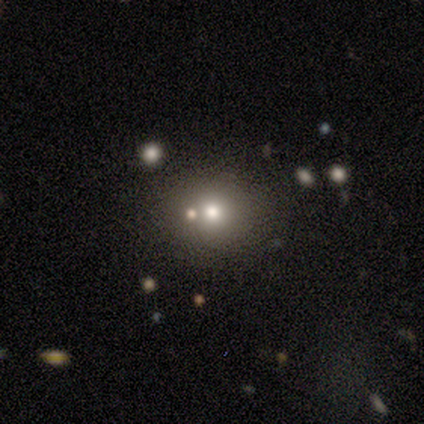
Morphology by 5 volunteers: Overall: star or artifact (60%; smooth 40%).